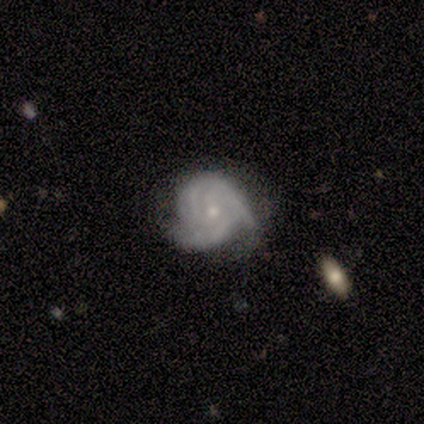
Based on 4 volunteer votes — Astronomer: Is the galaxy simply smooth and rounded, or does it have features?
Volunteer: featured or disk — 100%.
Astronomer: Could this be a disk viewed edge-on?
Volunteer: no — 100%.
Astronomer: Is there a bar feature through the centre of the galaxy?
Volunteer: no — 75%.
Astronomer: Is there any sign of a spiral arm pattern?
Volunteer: yes — 100%.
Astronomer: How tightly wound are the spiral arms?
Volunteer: tight — 75%.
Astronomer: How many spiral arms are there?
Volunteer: can't tell — 50%.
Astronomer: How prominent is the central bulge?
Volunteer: small — 75%.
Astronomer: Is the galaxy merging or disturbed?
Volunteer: none — 50%.